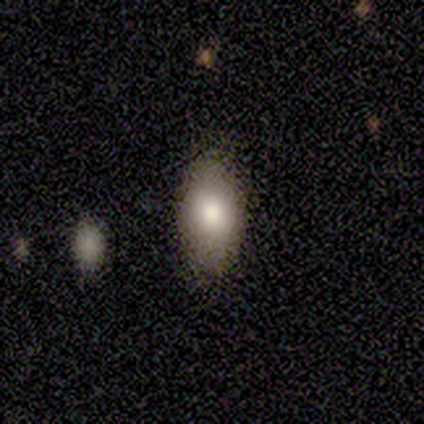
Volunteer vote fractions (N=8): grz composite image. It shows a smooth galaxy with no disk features (88%) that is in between round and cigar-shaped (100%). Merging: none (88%).